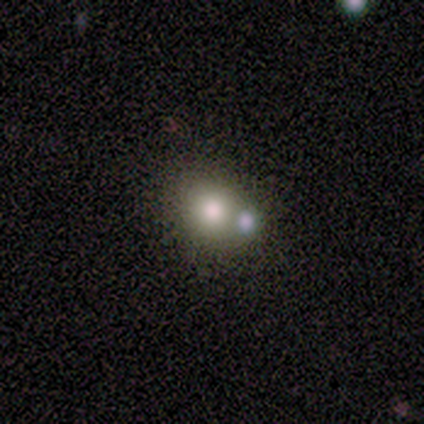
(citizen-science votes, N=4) Smooth or featured: featured or disk — 50% (smooth — 25%)
Edge-on disk: no — 100%
Bar: no — 100%
Spiral arms: no — 100%
Bulge size: large — 50% (tied with moderate — 50%)
Merging: merger — 67% (none — 33%)